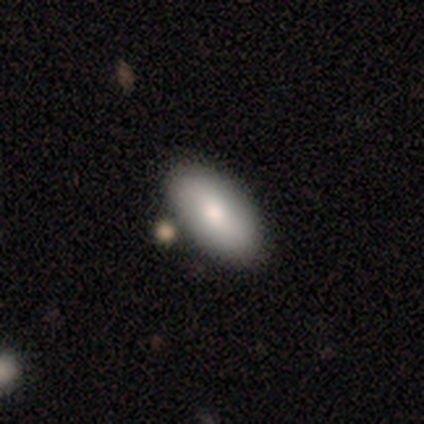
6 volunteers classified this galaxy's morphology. Smooth or featured?
  - smooth: 100% *
  - featured or disk: 0%
  - star or artifact: 0%
How rounded?
  - in between: 100% *
  - round: 0%
  - cigar-shaped: 0%
Merging?
  - none: 33% * (tied)
  - minor disturbance: 33% * (tied)
  - merger: 33% * (tied)
  - major disturbance: 0%